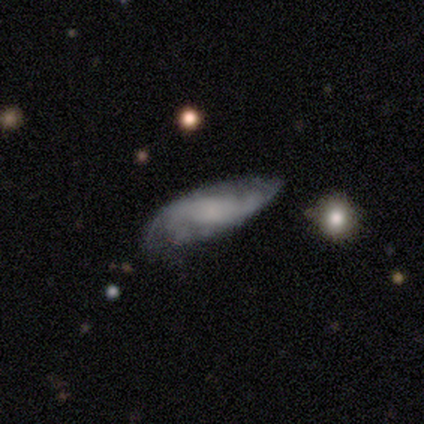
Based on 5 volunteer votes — Smooth or featured? featured or disk (60%)
Edge-on disk? no (67%)
Bar? weak (50%, tied with no)
Spiral arms? yes (100%)
Spiral winding? tight (100%)
Spiral arm count? 2 (50%, tied with can't tell)
Bulge size? small (50%, tied with none)
Merging? minor disturbance (80%)